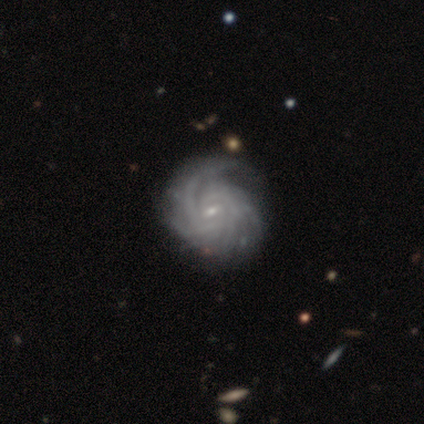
This appears to be a featured or disk galaxy (100%) with a strong bar (100%), tight (100%) spiral arms (100%) and a small central bulge (100%). Merging: none (100%).